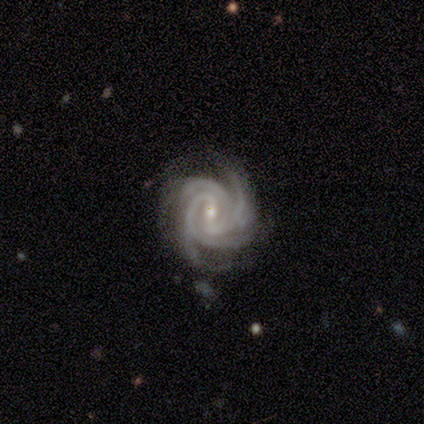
smooth_or_featured: featured or disk (p=1.00)
disk_edge_on: no (p=1.00)
bar: strong (p=0.40) [tied with: no p=0.40]
has_spiral_arms: yes (p=1.00)
spiral_winding: tight (p=0.40) [tied with: loose p=0.40]
spiral_arm_count: 4 (p=1.00)
bulge_size: moderate (p=0.60) [alt: small p=0.40]
merging: none (p=1.00)